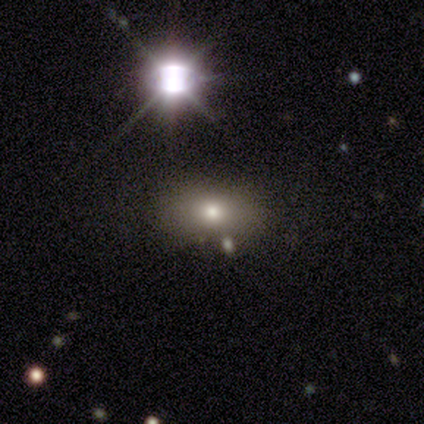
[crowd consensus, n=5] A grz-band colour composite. It shows a smooth galaxy with no disk features (60%) that is in between round and cigar-shaped (100%). Merging: none (100%).